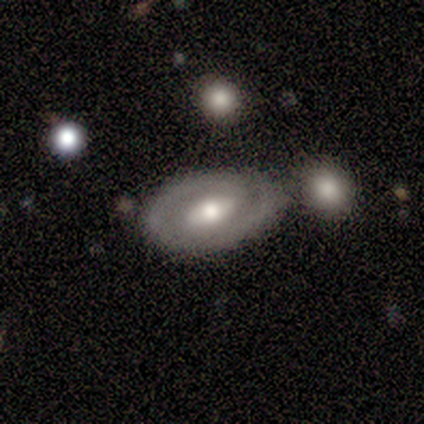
Volunteers were most divided on "bar" (3-way tie): strong: 33%, weak: 33%, no: 33%; "spiral arm count" (2-way tie): 1: 50%, 2: 50%, 3: 0%, 4: 0%, more than 4: 0%, can't tell: 0%. More confident: edge-on disk — no (100%); spiral winding — medium (100%); spiral arms — yes (67%); bulge size — moderate (67%); smooth or featured — featured or disk (60%); merging — none (60%).